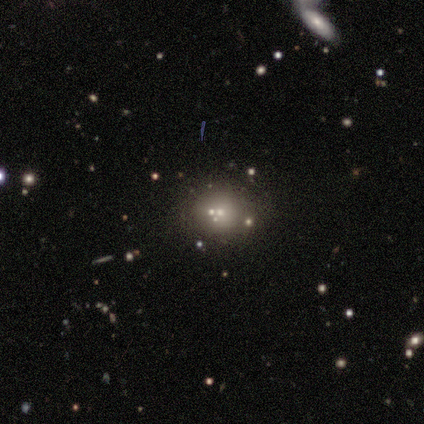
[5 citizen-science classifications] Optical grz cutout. It shows a featured or disk galaxy (40%, tied with star or artifact) with no bar (100%), no spiral arms (100%) and a dominant central bulge (50%, tied with small). Merging: none (67%).